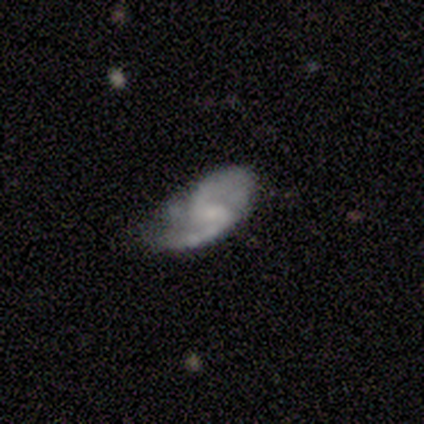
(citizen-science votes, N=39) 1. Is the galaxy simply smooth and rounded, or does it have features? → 72% featured or disk, 21% smooth, 8% star or artifact.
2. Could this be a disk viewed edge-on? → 93% no, 7% yes.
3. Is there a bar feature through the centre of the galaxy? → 62% weak, 27% no, 12% strong.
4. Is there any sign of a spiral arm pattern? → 92% yes, 8% no.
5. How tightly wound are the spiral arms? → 50% medium, 33% loose, 17% tight.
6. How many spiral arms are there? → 92% 2, 4% 1, 4% 3, 0% 4, 0% more than 4, 0% can't tell.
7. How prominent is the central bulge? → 62% small, 27% none, 8% moderate, 4% dominant, 0% large.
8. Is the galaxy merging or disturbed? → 44% none, 31% minor disturbance, 25% major disturbance, 0% merger.